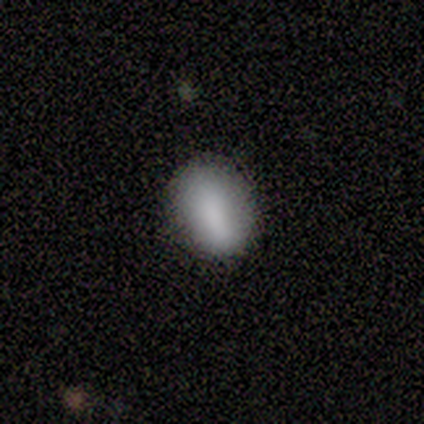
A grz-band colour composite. It shows a smooth galaxy with no disk features (88%) that is in between round and cigar-shaped (86%). Merging: none (88%).